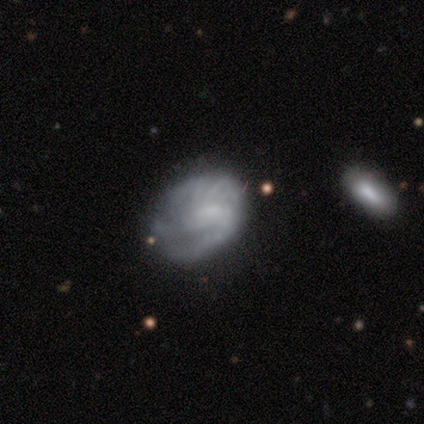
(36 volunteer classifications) Smooth or featured?
  - featured or disk: 61% *
  - smooth: 36%
  - star or artifact: 3%
Edge-on disk?
  - no: 100% *
  - yes: 0%
Bar?
  - no: 50% *
  - weak: 36%
  - strong: 14%
Spiral arms?
  - yes: 82% *
  - no: 18%
Spiral winding?
  - tight: 50% *
  - medium: 28%
  - loose: 22%
Spiral arm count?
  - 2: 50% *
  - can't tell: 28%
  - 3: 11%
  - 1: 6%
  - 4: 6%
  - more than 4: 0%
Bulge size?
  - none: 50% *
  - small: 27%
  - large: 14%
  - moderate: 9%
  - dominant: 0%
Merging?
  - none: 71% *
  - minor disturbance: 14%
  - major disturbance: 9%
  - merger: 6%